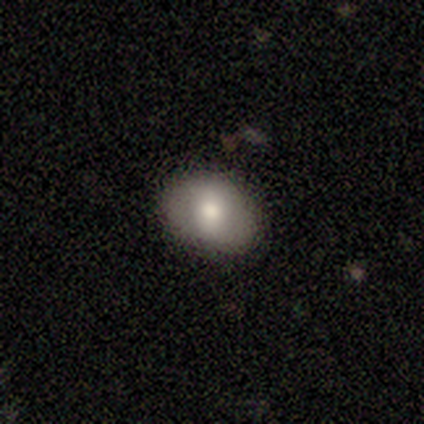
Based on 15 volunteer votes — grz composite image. It shows a smooth galaxy with no disk features (87%) that is in between round and cigar-shaped (69%). Merging: none (87%).